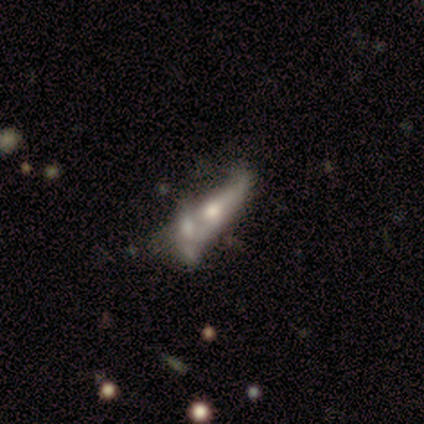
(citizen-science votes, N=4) Q: Smooth or featured?
A: featured or disk (75%); runner-up: star or artifact (25%)
Q: Edge-on disk?
A: no (67%); runner-up: yes (33%)
Q: Bar?
A: weak (50%); tied with: no (50%)
Q: Spiral arms?
A: no (100%)
Q: Bulge size?
A: small (100%)
Q: Merging?
A: major disturbance (67%); runner-up: minor disturbance (33%)